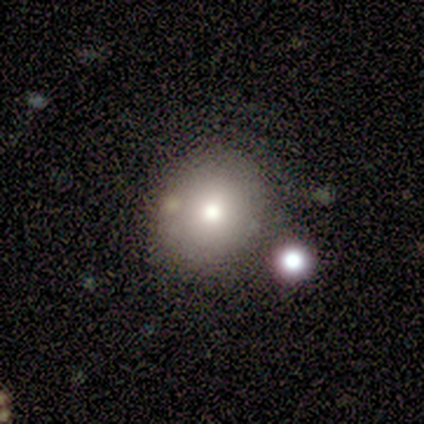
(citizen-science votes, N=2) Overall: smooth (100%). How rounded: round (50%, tied with in between). Merging: none (100%).